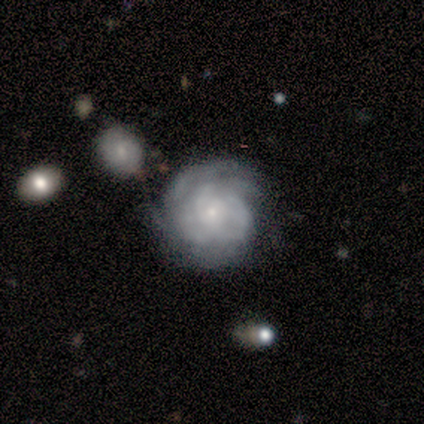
Smooth or featured: featured or disk — 78% (smooth — 15%)
Edge-on disk: no — 100%
Bar: no — 84% (weak — 16%)
Spiral arms: yes — 90% (no — 10%)
Spiral winding: tight — 79% (medium — 14%)
Spiral arm count: can't tell — 32% (3 — 25%)
Bulge size: small — 90% (moderate — 10%)
Merging: none — 70% (minor disturbance — 14%)